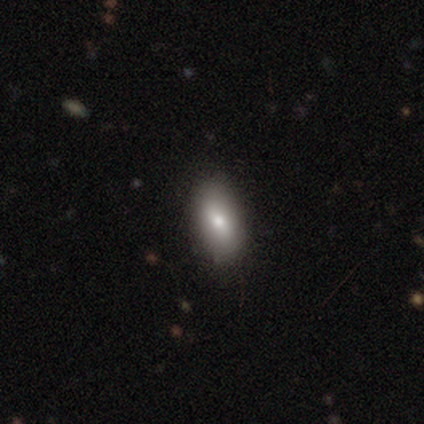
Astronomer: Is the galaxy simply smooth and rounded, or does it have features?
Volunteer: smooth — 100%.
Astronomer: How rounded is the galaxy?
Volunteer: in between — 100%.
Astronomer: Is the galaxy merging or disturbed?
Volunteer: none — 100%.